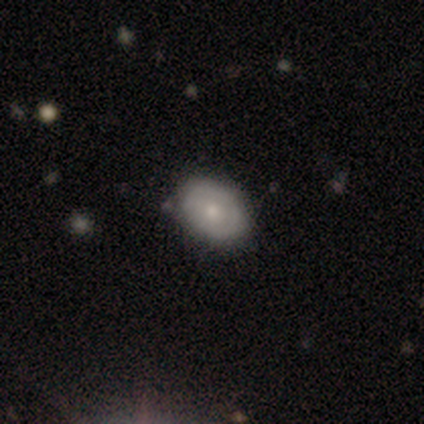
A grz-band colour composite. It shows a smooth galaxy with no disk features (62%) that is in between round and cigar-shaped (92%). Merging: none (58%).